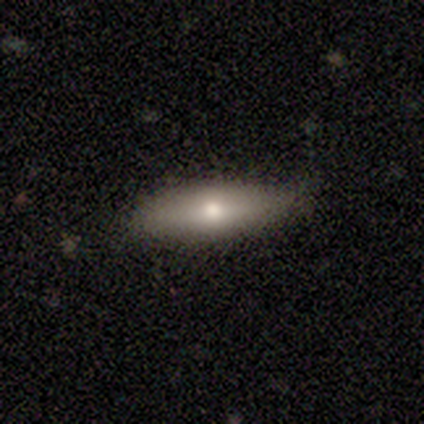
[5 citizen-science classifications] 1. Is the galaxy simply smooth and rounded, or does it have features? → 60% featured or disk, 40% smooth, 0% star or artifact.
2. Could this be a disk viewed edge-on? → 67% yes, 33% no.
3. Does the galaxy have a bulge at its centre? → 100% rounded, 0% boxy, 0% none.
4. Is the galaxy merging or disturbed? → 80% none, 20% minor disturbance, 0% major disturbance, 0% merger.